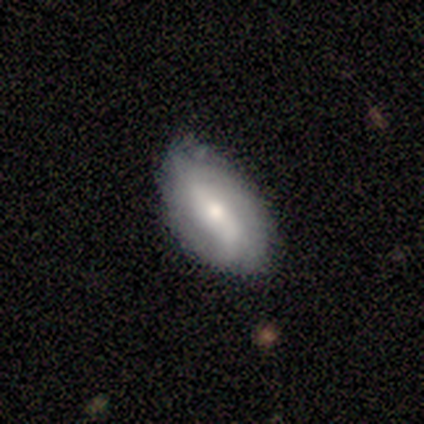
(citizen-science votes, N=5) Smooth or featured?
  - featured or disk: 60% *
  - smooth: 40%
  - star or artifact: 0%
Edge-on disk?
  - no: 100% *
  - yes: 0%
Bar?
  - weak: 67% *
  - strong: 33%
  - no: 0%
Spiral arms?
  - yes: 100% *
  - no: 0%
Spiral winding?
  - medium: 67% *
  - loose: 33%
  - tight: 0%
Spiral arm count?
  - 2: 67% *
  - can't tell: 33%
  - 1: 0%
  - 3: 0%
  - 4: 0%
  - more than 4: 0%
Bulge size?
  - moderate: 67% *
  - none: 33%
  - dominant: 0%
  - large: 0%
  - small: 0%
Merging?
  - none: 60% *
  - minor disturbance: 40%
  - major disturbance: 0%
  - merger: 0%